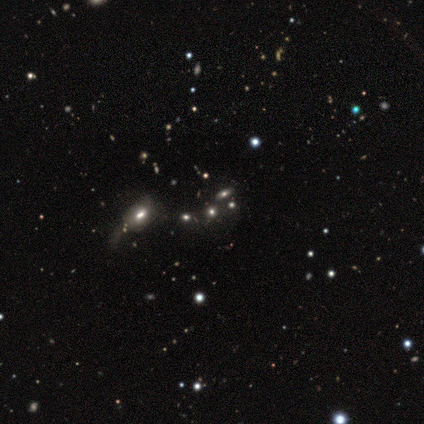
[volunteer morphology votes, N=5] Volunteers were most divided on "bulge size" (3-way tie): dominant: 33%, moderate: 33%, none: 33%, large: 0%, small: 0%; "merging" (2-way tie): none: 50%, major disturbance: 50%, minor disturbance: 0%, merger: 0%. More confident: edge-on disk — no (100%); bar — no (100%); spiral arms — no (100%); smooth or featured — featured or disk (60%).